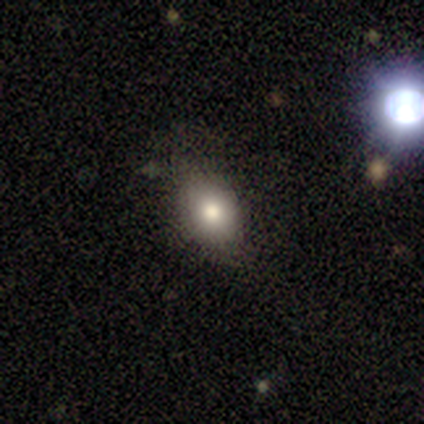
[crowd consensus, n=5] Smooth or featured? 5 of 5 (100%) said smooth. How rounded? 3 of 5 (60%) said in between. Merging? 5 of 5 (100%) said none.